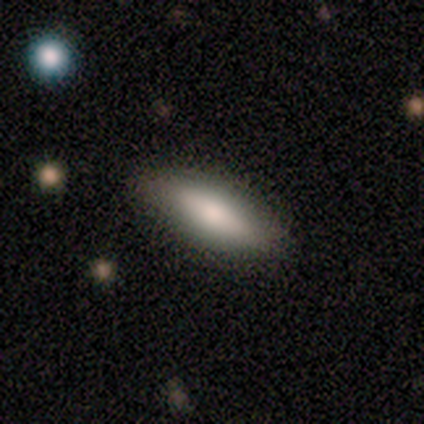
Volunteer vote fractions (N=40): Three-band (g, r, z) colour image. It shows a smooth galaxy with no disk features (60%) that is cigar-shaped (54%). Merging: none (86%).